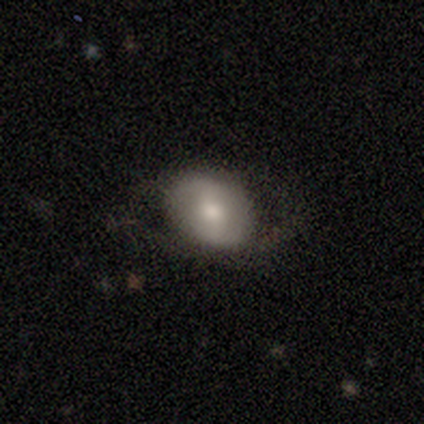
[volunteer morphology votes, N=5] Overall: smooth (60%; featured or disk 40%). How rounded: in between (67%; round 33%). Merging: none (40%, tied with minor disturbance).